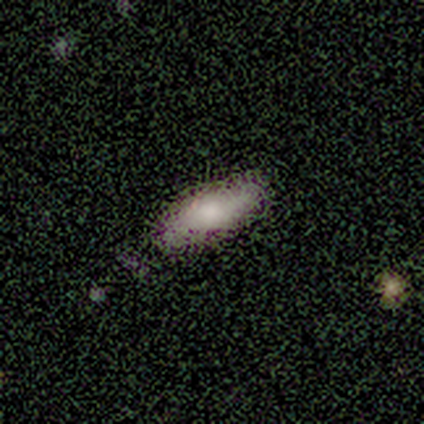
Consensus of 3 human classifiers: Q: Smooth or featured?
A: smooth (100%)
Q: How rounded?
A: in between (67%); runner-up: cigar-shaped (33%)
Q: Merging?
A: none (100%)